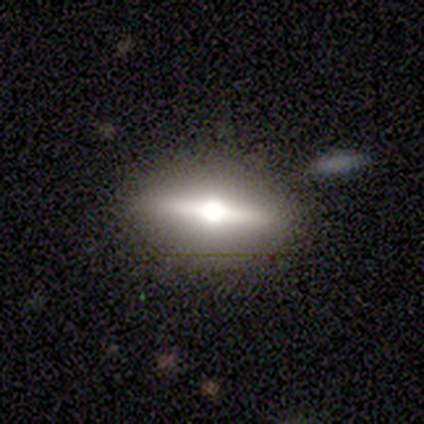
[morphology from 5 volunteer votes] Smooth or featured?
  - featured or disk: 60% *
  - smooth: 40%
  - star or artifact: 0%
Edge-on disk?
  - yes: 67% *
  - no: 33%
Edge-on bulge?
  - rounded: 100% *
  - boxy: 0%
  - none: 0%
Merging?
  - none: 60% *
  - major disturbance: 20%
  - merger: 20%
  - minor disturbance: 0%